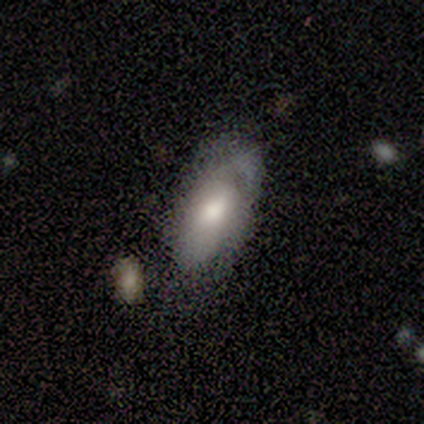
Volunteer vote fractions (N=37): Smooth or featured? 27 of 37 (73%) said smooth. How rounded? 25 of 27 (93%) said in between. Merging? 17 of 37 (46%) said minor disturbance.